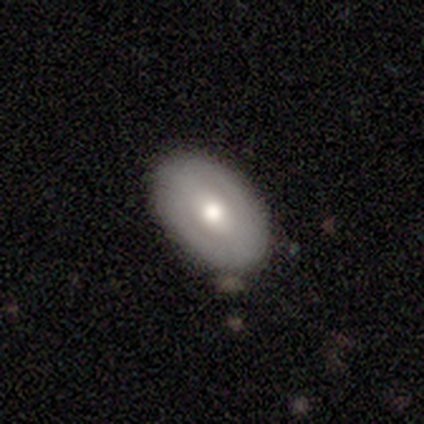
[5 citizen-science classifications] Morphology: type=smooth (60%); roundness=in between (100%); merging=none (100%).